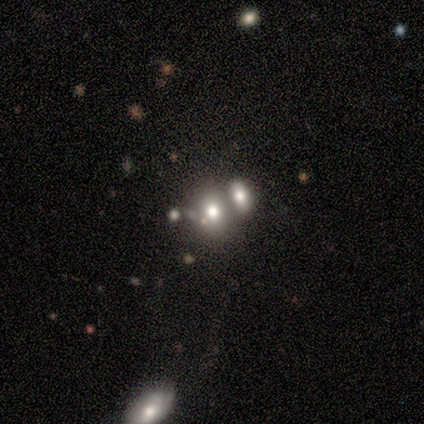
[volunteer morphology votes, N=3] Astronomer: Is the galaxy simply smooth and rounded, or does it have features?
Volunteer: smooth — 100%.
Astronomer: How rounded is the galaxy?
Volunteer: in between — 67%.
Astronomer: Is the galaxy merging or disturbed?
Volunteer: merger — 67%.